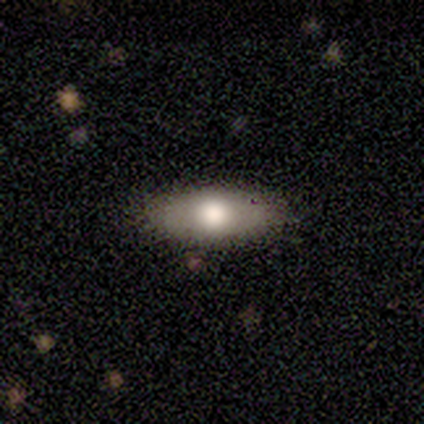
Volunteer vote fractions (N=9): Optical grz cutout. It shows a smooth galaxy with no disk features (67%) that is in between round and cigar-shaped (100%). Merging: none (62%).